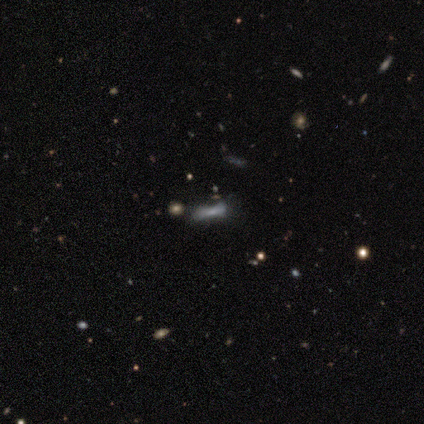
This appears to be a smooth galaxy with no disk features (40%, tied with star or artifact) that is in between round and cigar-shaped (50%, tied with cigar-shaped). Merging: none (33%, tied with minor disturbance and major disturbance).